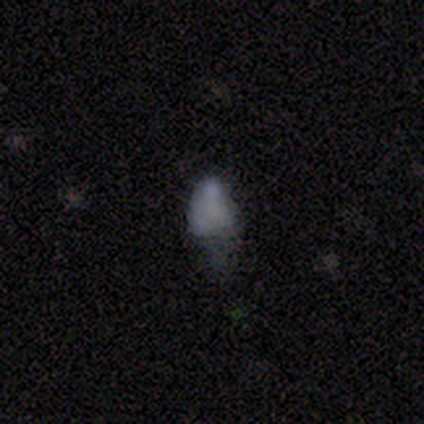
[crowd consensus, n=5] This is likely a featured or disk galaxy (60%). It is clearly not viewed edge-on (100%). Bar: likely no (67%). Spiral arm pattern: clearly no (100%). Central bulge: marginally moderate (33%, tied with small and none). Merging: likely minor disturbance (60%).